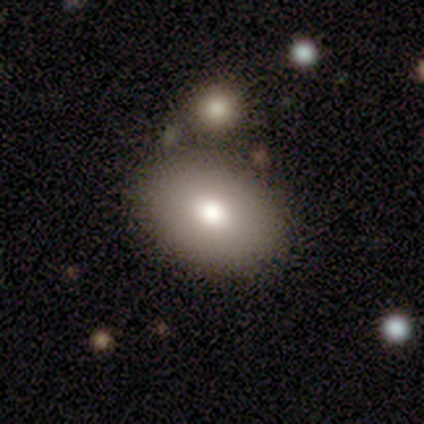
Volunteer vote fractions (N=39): smooth-or-featured: smooth: 87% | featured or disk: 8% | star or artifact: 5%
  how-rounded: in between: 91% | round: 9% | cigar-shaped: 0%
  merging: none: 65% | merger: 14% | minor disturbance: 5% | major disturbance: 0%